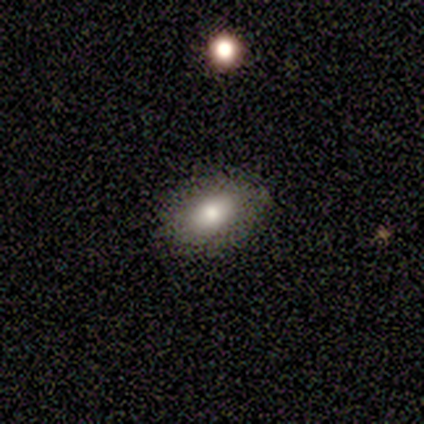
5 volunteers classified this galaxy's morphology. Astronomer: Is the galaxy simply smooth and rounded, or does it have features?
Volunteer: smooth — 100%.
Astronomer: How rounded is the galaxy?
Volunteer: in between — 100%.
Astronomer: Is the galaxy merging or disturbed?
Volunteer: none — 100%.